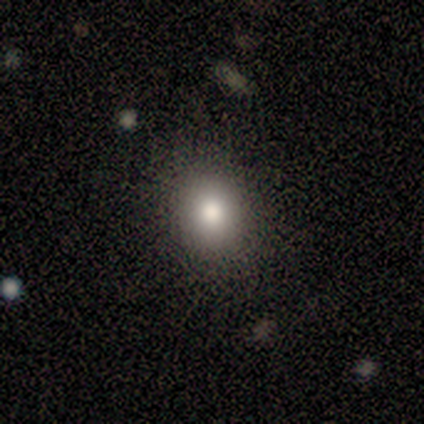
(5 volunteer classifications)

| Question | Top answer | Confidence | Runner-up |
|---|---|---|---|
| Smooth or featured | smooth | 80% | star or artifact (20%) |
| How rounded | round | 50% | tied: in between (50%) |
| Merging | none | 100% | — |